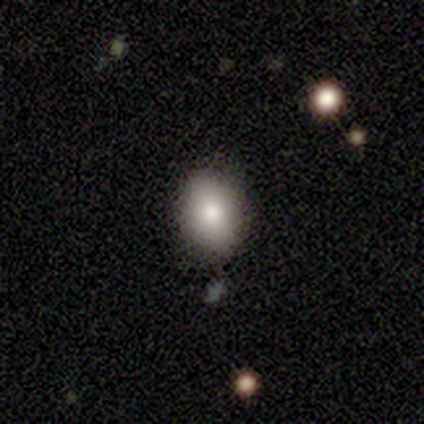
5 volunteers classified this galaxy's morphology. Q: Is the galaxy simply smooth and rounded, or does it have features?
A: smooth — 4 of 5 (80%).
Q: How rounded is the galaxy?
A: in between — 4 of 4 (100%).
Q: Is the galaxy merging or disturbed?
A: none — 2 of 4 (50%).